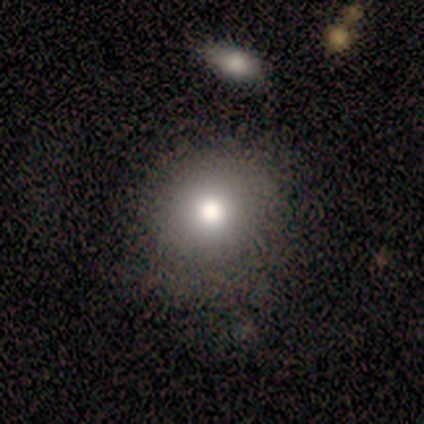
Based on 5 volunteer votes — Smooth or featured?
  - smooth: 60% *
  - star or artifact: 40%
  - featured or disk: 0%
How rounded?
  - round: 100% *
  - in between: 0%
  - cigar-shaped: 0%
Merging?
  - none: 100% *
  - minor disturbance: 0%
  - major disturbance: 0%
  - merger: 0%